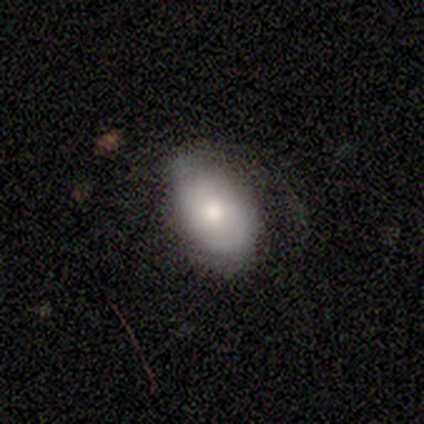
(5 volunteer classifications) Overall: smooth (60%; featured or disk 20%). How rounded: in between (100%). Merging: none (75%).